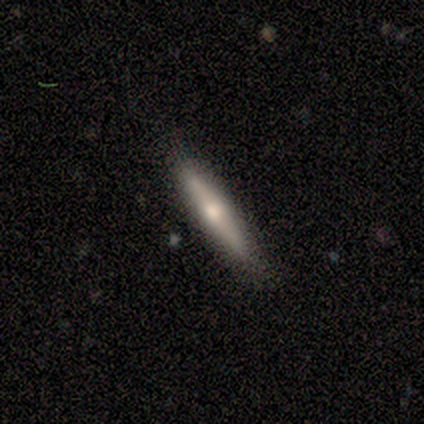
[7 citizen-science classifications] Overall: smooth (57%; featured or disk 43%). How rounded: cigar-shaped (100%). Merging: none (100%).